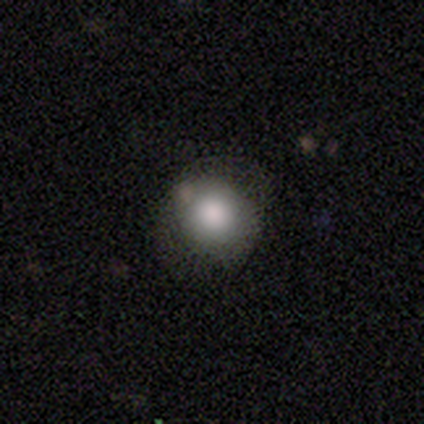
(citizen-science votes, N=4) Smooth or featured: smooth — 75% (featured or disk — 25%)
How rounded: round — 67% (in between — 33%)
Merging: none — 75% (minor disturbance — 25%)